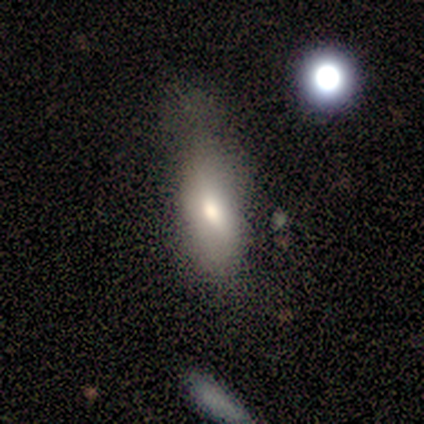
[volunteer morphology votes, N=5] type=smooth (60%); roundness=in between (100%); merging=minor disturbance (60%).